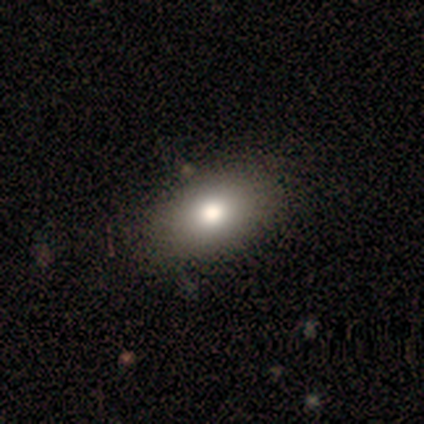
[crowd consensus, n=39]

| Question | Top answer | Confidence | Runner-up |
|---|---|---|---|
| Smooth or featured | smooth | 87% | featured or disk (10%) |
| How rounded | in between | 88% | round (12%) |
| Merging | none | 63% | minor disturbance (3%) |